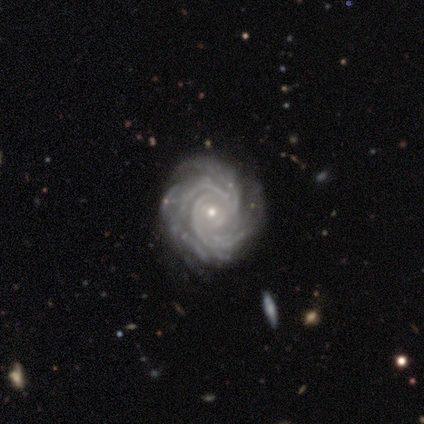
Volunteers were most divided on "spiral arm count" (2-way tie): 3: 28%, more than 4: 28%, can't tell: 23%, 4: 18%, 2: 3%, 1: 0%. More confident: edge-on disk — no (100%); spiral arms — yes (100%); smooth or featured — featured or disk (98%); spiral winding — tight (82%); merging — none (79%); bulge size — small (74%); bar — no (64%).